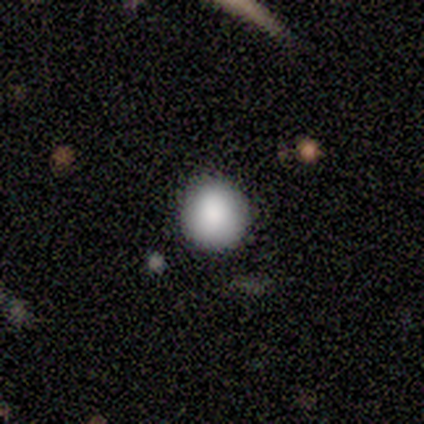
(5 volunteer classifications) Morphology: type=smooth (100%); roundness=round (100%); merging=none (100%).